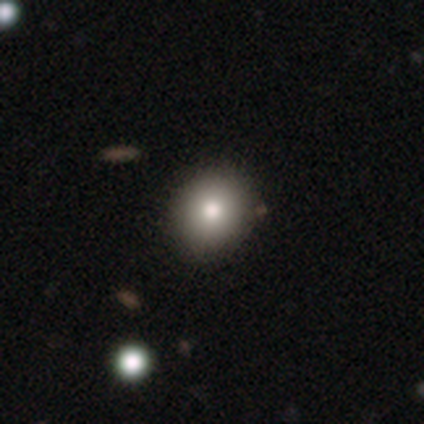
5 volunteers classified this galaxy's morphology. This appears to be a smooth galaxy with no disk features (80%) that is in between round and cigar-shaped (75%). Merging: none (80%).